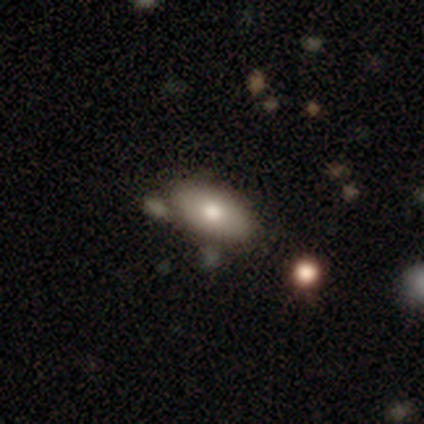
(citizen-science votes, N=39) smooth_or_featured: smooth (p=0.74) [alt: featured or disk p=0.21]
how_rounded: in between (p=0.90) [alt: round p=0.07]
merging: none (p=0.65) [alt: minor disturbance p=0.19]